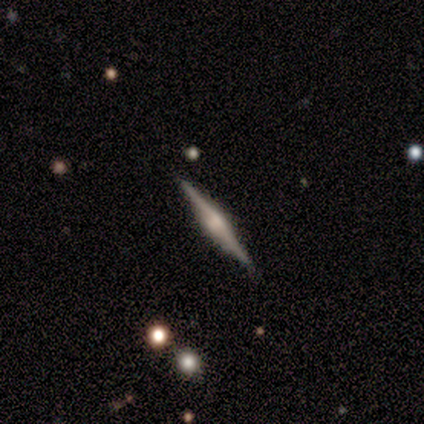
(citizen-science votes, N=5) Smooth or featured?
  - featured or disk: 100% *
  - smooth: 0%
  - star or artifact: 0%
Edge-on disk?
  - yes: 100% *
  - no: 0%
Edge-on bulge?
  - rounded: 60% *
  - boxy: 40%
  - none: 0%
Merging?
  - none: 100% *
  - minor disturbance: 0%
  - major disturbance: 0%
  - merger: 0%